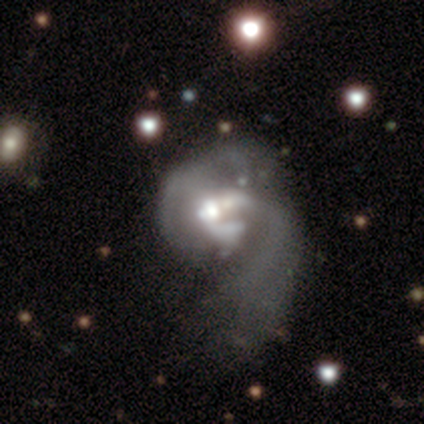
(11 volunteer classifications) Volunteers were most divided on "spiral arm count" (2-way tie): 1: 43%, 2: 43%, 4: 14%, 3: 0%, more than 4: 0%, can't tell: 0%. Remaining: edge-on disk — no (100%); spiral winding — loose (100%); smooth or featured — featured or disk (91%); spiral arms — yes (70%); merging — major disturbance (55%); bar — no (50%); bulge size — small (40%).